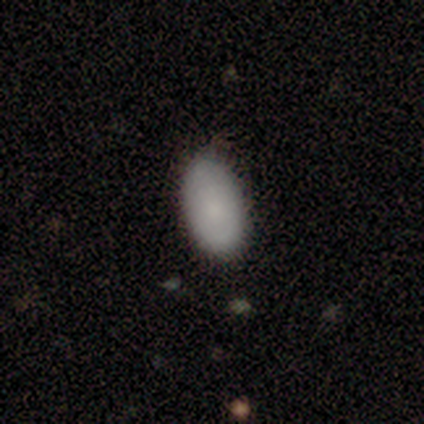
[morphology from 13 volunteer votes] smooth 100%, featured or disk 0%, star or artifact 0%. Down the decision tree: how rounded — in between (92%); merging — none (85%).